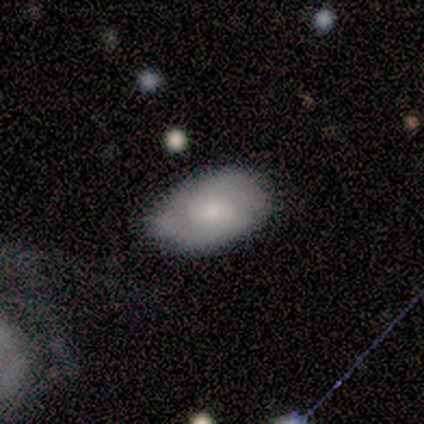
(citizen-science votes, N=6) This appears to be a smooth galaxy with no disk features (50%) that is in between round and cigar-shaped (100%). Merging: minor disturbance (60%).